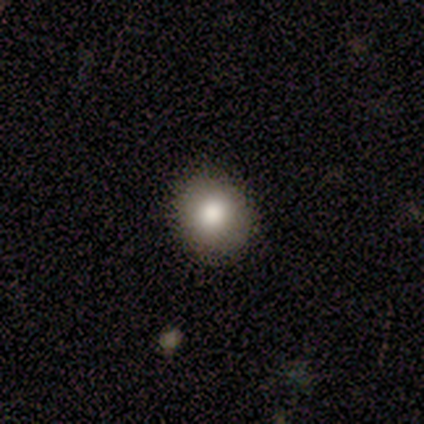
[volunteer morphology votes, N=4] This is likely a smooth galaxy (75%). How rounded: clearly round (100%). Merging: clearly none (100%).